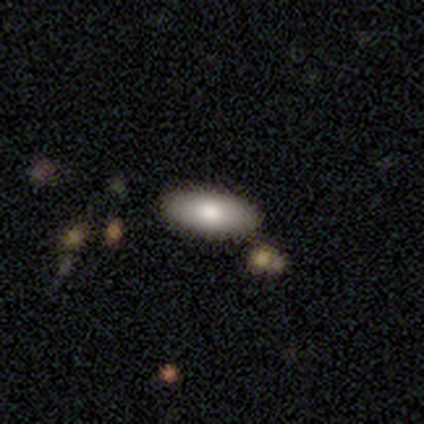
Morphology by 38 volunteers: Overall: smooth (74%). How rounded: in between (93%). Merging: none (86%).